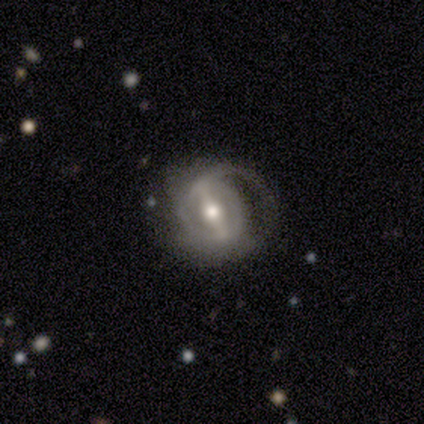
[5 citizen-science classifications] smooth_or_featured: featured or disk (p=0.80) [alt: smooth p=0.20]
disk_edge_on: no (p=1.00)
bar: strong (p=0.75) [alt: weak p=0.25]
has_spiral_arms: no (p=0.75) [alt: yes p=0.25]
bulge_size: moderate (p=0.75) [alt: small p=0.25]
merging: major disturbance (p=0.60) [alt: none p=0.20]